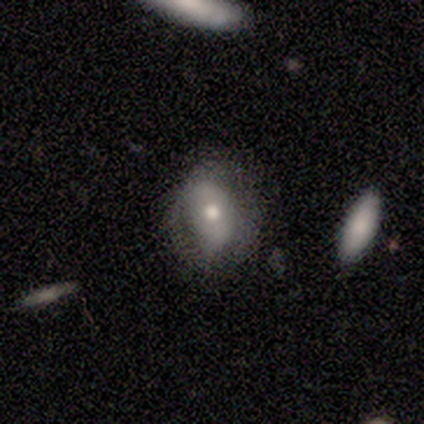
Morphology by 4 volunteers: Volunteers were most divided on "smooth or featured": smooth: 75%, star or artifact: 25%, featured or disk: 0%. More confident: how rounded — in between (100%); merging — none (100%).